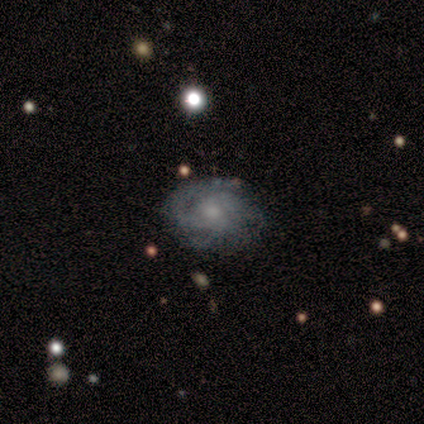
smooth_or_featured: featured or disk (p=0.75) [alt: smooth p=0.18]
disk_edge_on: no (p=0.95) [alt: yes p=0.05]
bar: no (p=0.83) [alt: weak p=0.17]
has_spiral_arms: yes (p=0.94) [alt: no p=0.06]
spiral_winding: tight (p=0.56) [alt: medium p=0.35]
spiral_arm_count: can't tell (p=0.29) [alt: 3 p=0.26]
bulge_size: small (p=0.67) [alt: moderate p=0.31]
merging: none (p=0.77) [alt: minor disturbance p=0.21]